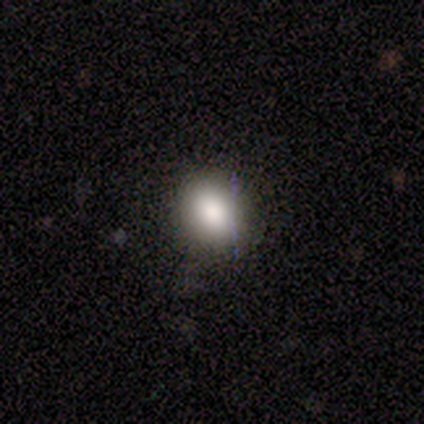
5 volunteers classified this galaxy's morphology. Smooth or featured: smooth — 80% (star or artifact — 20%)
How rounded: round — 75% (in between — 25%)
Merging: none — 100%